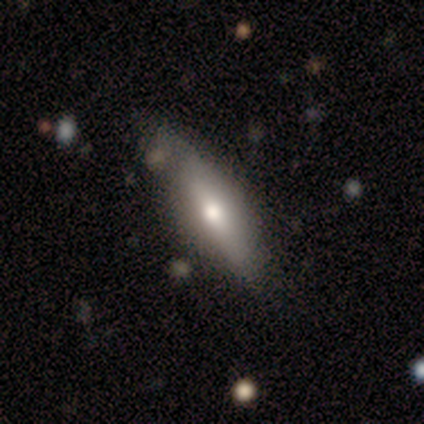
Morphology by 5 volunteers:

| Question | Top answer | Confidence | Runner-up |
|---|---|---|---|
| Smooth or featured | featured or disk | 80% | star or artifact (20%) |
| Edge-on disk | yes | 75% | no (25%) |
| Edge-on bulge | rounded | 67% | none (33%) |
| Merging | none | 50% | tied: minor disturbance (50%) |